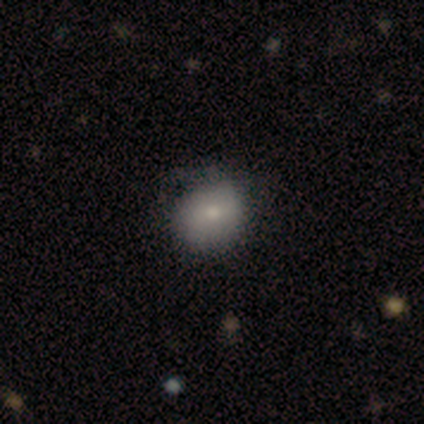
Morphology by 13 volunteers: smooth_or_featured: smooth (p=0.85) [alt: featured or disk p=0.15]
how_rounded: round (p=0.73) [alt: in between p=0.27]
merging: none (p=0.85) [alt: minor disturbance p=0.15]